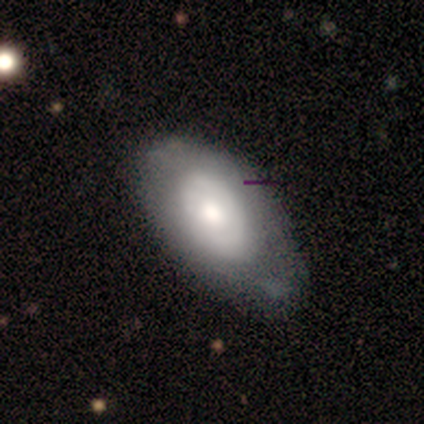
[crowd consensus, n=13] Smooth or featured? 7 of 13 (54%) said smooth. How rounded? 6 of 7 (86%) said in between. Merging? 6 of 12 (50%) said minor disturbance.